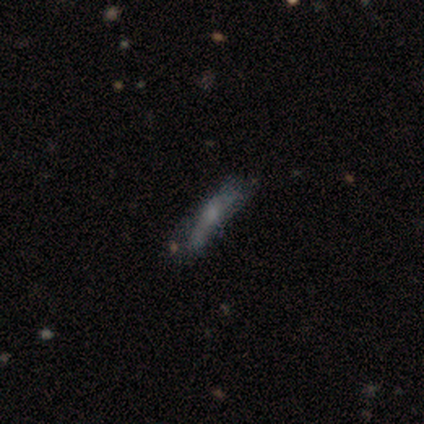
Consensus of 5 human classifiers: Overall: smooth (40%, tied with featured or disk). How rounded: in between (50%, tied with cigar-shaped). Merging: none (50%; minor disturbance 25%).